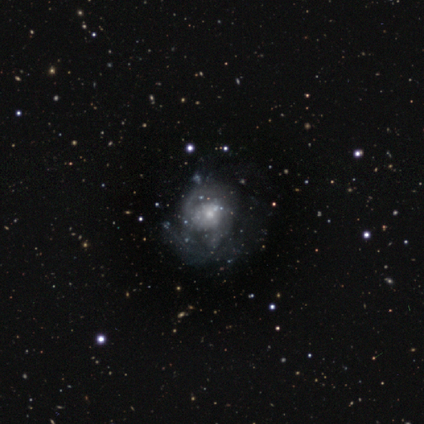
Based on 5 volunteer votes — smooth-or-featured: featured or disk: 60% | smooth: 20% | star or artifact: 20%
  disk-edge-on: no: 100% | yes: 0%
    bar: no: 67% | weak: 33% | strong: 0%
    has-spiral-arms: no: 67% | yes: 33%
    bulge-size: small: 67% | moderate: 33% | dominant: 0% | large: 0% | none: 0%
  merging: none: 50% (tied) | major disturbance: 50% (tied) | minor disturbance: 0% | merger: 0%